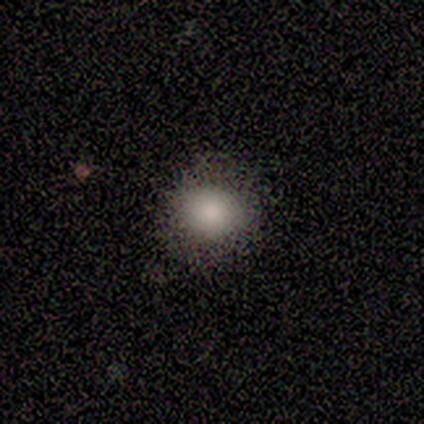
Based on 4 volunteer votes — Smooth or featured? smooth (50%, tied with star or artifact)
How rounded? round (50%, tied with in between)
Merging? none (100%)